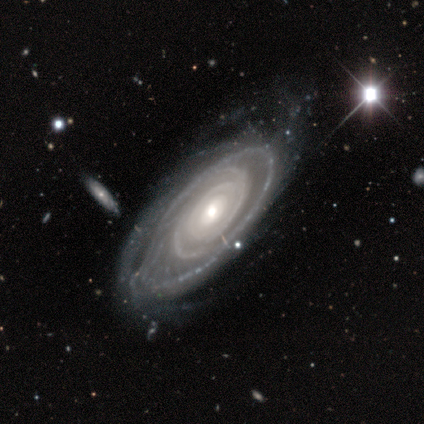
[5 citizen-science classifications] Q: Smooth or featured?
A: featured or disk (100%)
Q: Edge-on disk?
A: no (100%)
Q: Bar?
A: no (80%); runner-up: weak (20%)
Q: Spiral arms?
A: yes (100%)
Q: Spiral winding?
A: tight (60%); runner-up: medium (40%)
Q: Spiral arm count?
A: can't tell (40%); runner-up: 2 (20%)
Q: Bulge size?
A: moderate (80%); runner-up: small (20%)
Q: Merging?
A: none (80%); runner-up: minor disturbance (20%)